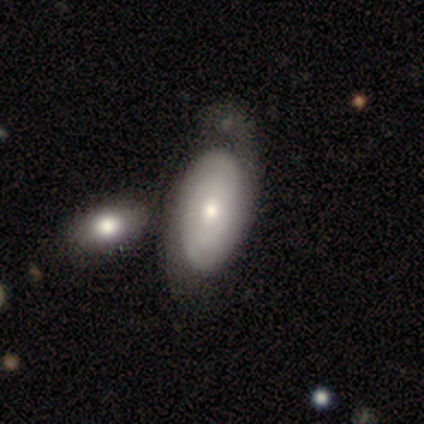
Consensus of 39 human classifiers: Smooth or featured? 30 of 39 (77%) said featured or disk. Edge-on disk? 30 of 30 (100%) said no. Bar? 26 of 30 (87%) said no. Spiral arms? 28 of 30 (93%) said yes. Spiral winding? 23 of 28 (82%) said tight. Spiral arm count? 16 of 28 (57%) said can't tell. Bulge size? 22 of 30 (73%) said moderate. Merging? 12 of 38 (32%) said merger.